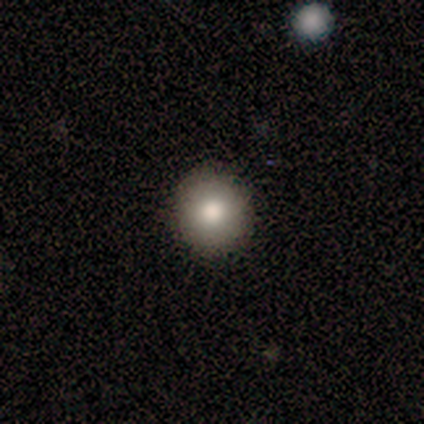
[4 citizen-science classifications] Consensus on every question: smooth or featured — smooth (100%); how rounded — round (100%); merging — none (100%).